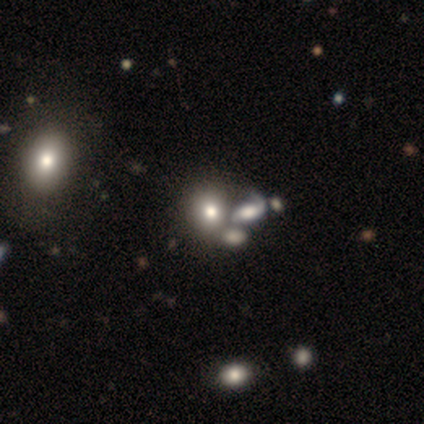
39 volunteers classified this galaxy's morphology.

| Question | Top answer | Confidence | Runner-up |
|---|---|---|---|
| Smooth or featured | smooth | 54% | featured or disk (31%) |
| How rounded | round | 76% | in between (24%) |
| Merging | merger | 58% | none (33%) |